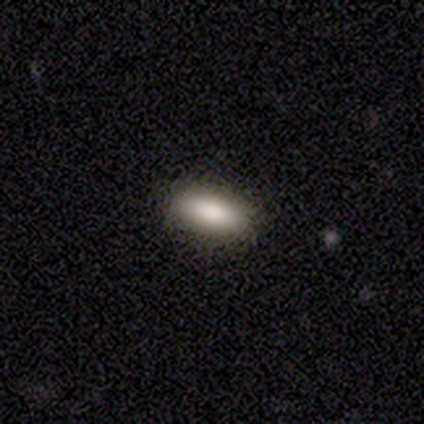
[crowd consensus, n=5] Overall: smooth (80%). How rounded: in between (100%). Merging: none (100%).